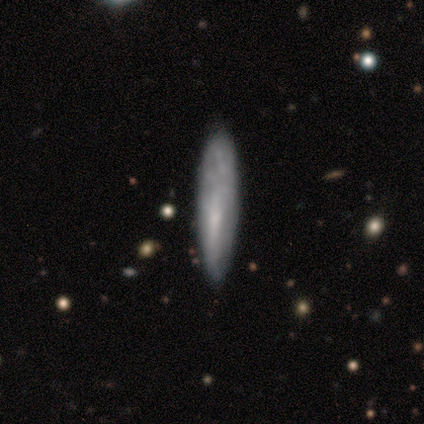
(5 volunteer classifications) smooth_or_featured: featured or disk (p=0.60) [alt: smooth p=0.40]
disk_edge_on: yes (p=0.67) [alt: no p=0.33]
edge_on_bulge: none (p=0.50) [tied with: rounded p=0.50]
merging: none (p=0.60) [alt: minor disturbance p=0.40]